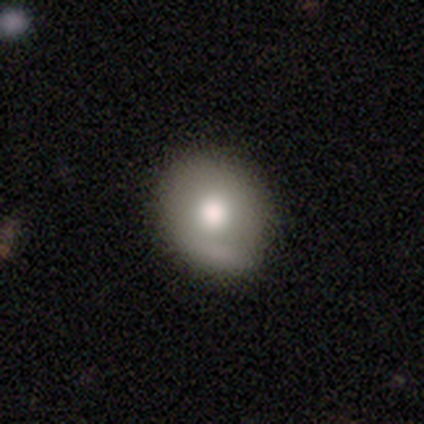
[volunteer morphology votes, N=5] Smooth or featured: smooth — 80% (featured or disk — 20%)
How rounded: round — 100%
Merging: minor disturbance — 60% (none — 40%)